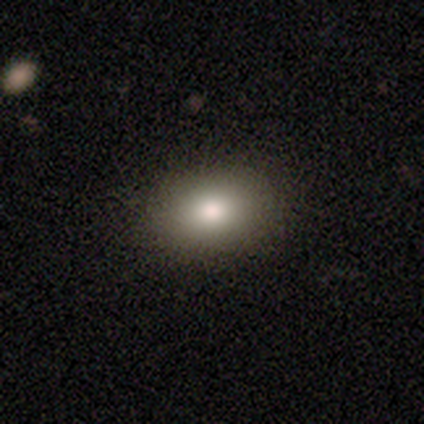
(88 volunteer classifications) This appears to be a smooth galaxy with no disk features (81%) that is in between round and cigar-shaped (76%). Merging: none (83%).